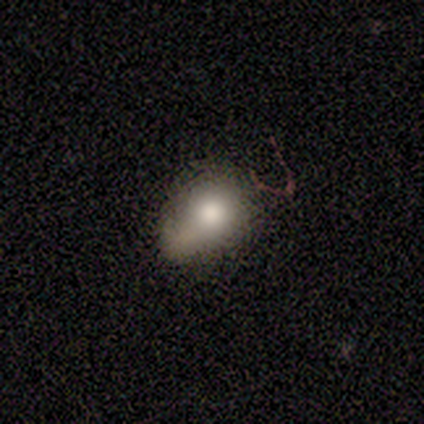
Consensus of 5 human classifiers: A smooth galaxy with no disk features (80%) that is in between round and cigar-shaped (100%). Merging: minor disturbance (80%).